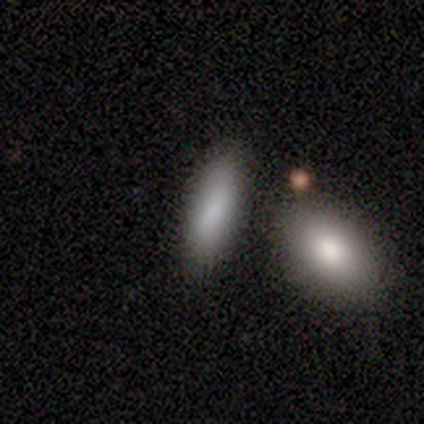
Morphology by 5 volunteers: A smooth galaxy with no disk features (100%) that is in between round and cigar-shaped (80%). Merging: none (100%).